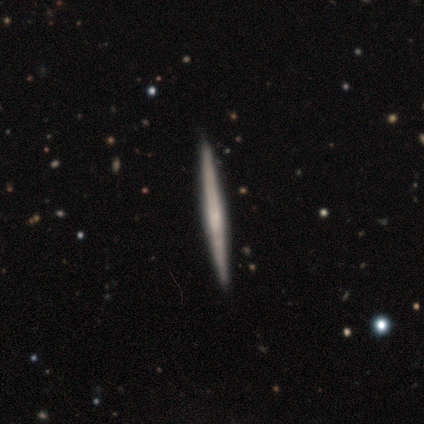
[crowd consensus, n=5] This is clearly a smooth galaxy (80%). How rounded: clearly cigar-shaped (100%). Merging: clearly none (100%).